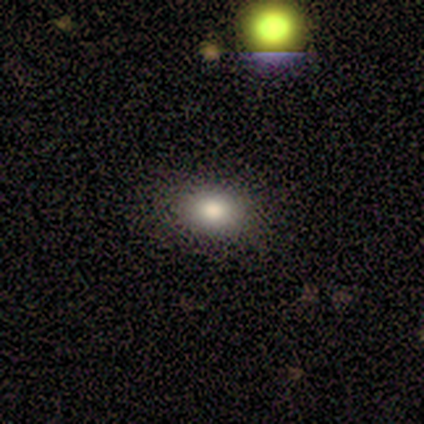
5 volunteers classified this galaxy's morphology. Smooth or featured: smooth — 80% (star or artifact — 20%)
How rounded: round — 50% (tied with in between — 50%)
Merging: none — 75% (minor disturbance — 25%)